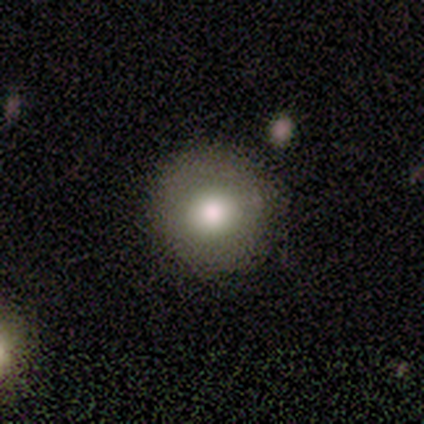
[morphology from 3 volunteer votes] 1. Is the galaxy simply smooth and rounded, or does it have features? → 100% smooth, 0% featured or disk, 0% star or artifact.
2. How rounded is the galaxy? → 100% round, 0% in between, 0% cigar-shaped.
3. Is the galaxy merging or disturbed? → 100% none, 0% minor disturbance, 0% major disturbance, 0% merger.